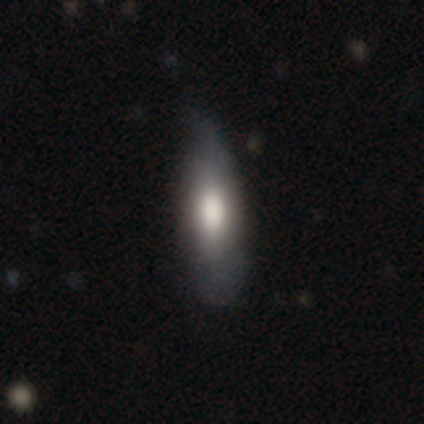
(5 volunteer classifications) This appears to be a smooth galaxy with no disk features (80%) that is cigar-shaped (75%). Merging: minor disturbance (60%).